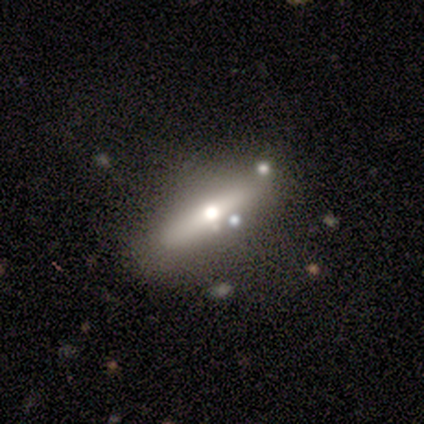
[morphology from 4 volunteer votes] type=featured or disk (100%); edge-on=yes (75%); edge-on bulge=rounded (100%); merging=none (75%).